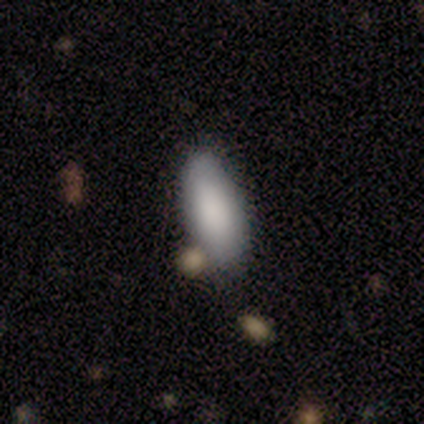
Q: Smooth or featured?
A: smooth (80%); runner-up: star or artifact (20%)
Q: How rounded?
A: in between (100%)
Q: Merging?
A: none (75%); runner-up: merger (25%)